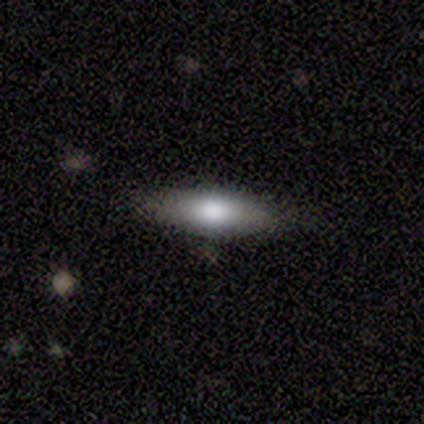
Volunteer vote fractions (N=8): Smooth or featured: smooth — 88% (featured or disk — 12%)
How rounded: in between — 57% (cigar-shaped — 43%)
Merging: none — 100%